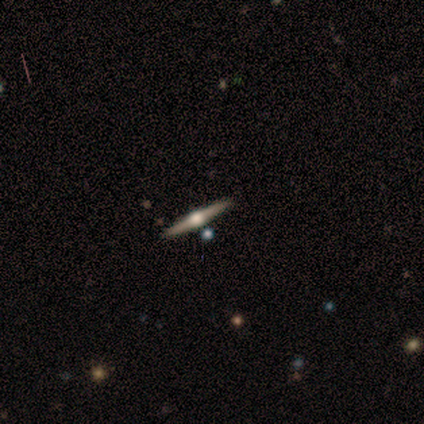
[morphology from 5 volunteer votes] Smooth or featured? featured or disk (100%)
Edge-on disk? yes (100%)
Edge-on bulge? rounded (80%)
Merging? none (80%)